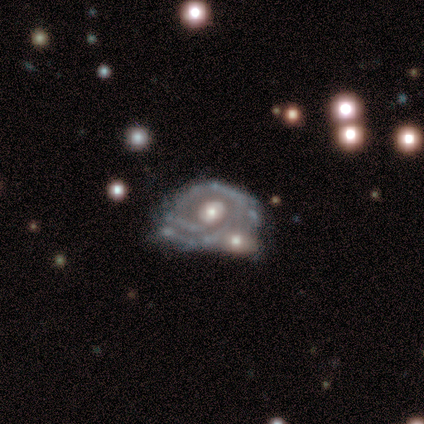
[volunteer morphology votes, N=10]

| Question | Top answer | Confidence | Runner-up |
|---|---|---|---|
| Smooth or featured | featured or disk | 100% | — |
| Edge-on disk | no | 90% | yes (10%) |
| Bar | no | 100% | — |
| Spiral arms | yes | 89% | no (11%) |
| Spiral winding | tight | 62% | medium (38%) |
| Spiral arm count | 2 | 38% | tied: can't tell (38%) |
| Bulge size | moderate | 67% | small (22%) |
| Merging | none | 60% | minor disturbance (20%) |